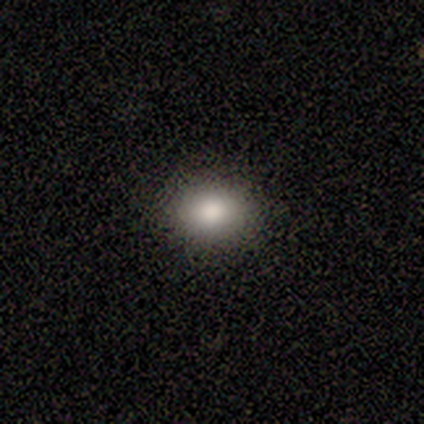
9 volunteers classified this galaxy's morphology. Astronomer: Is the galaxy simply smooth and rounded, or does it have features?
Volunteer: smooth — 100%.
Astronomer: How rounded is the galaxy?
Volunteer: in between — 56% (runner-up: round, 44%).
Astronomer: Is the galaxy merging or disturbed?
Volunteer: none — 89%.